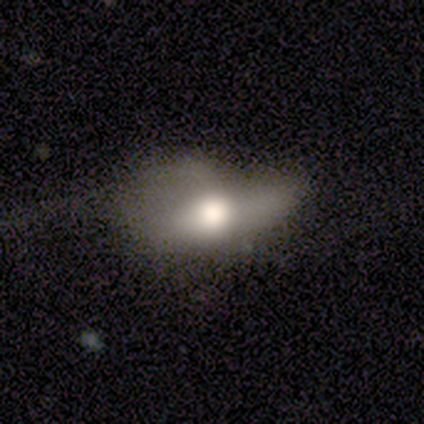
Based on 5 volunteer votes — Overall: smooth (60%; featured or disk 40%). How rounded: in between (67%; round 33%). Merging: minor disturbance (80%).